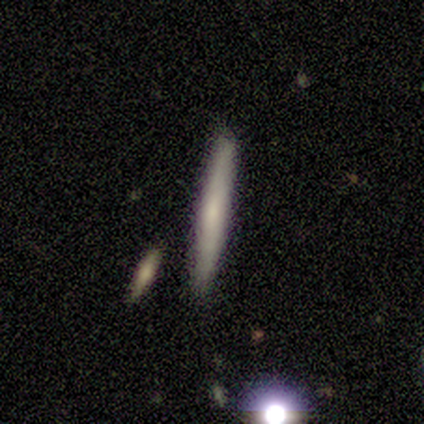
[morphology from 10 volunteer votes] type=smooth (50%, tied with featured or disk); roundness=cigar-shaped (100%); merging=none (90%).